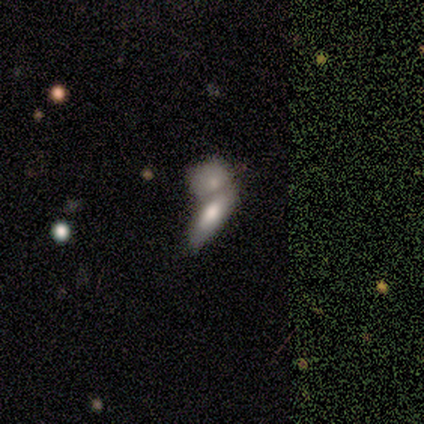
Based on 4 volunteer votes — Smooth or featured: smooth — 100%
How rounded: cigar-shaped — 75% (in between — 25%)
Merging: merger — 100%